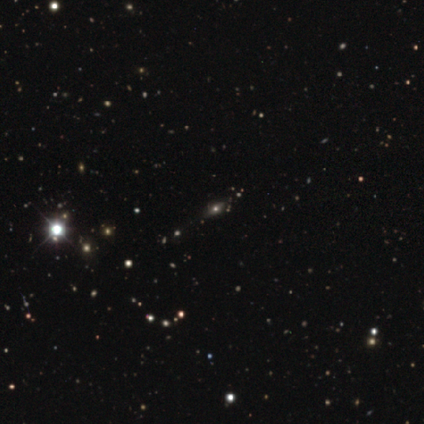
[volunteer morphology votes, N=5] featured or disk 60%, smooth 20%, star or artifact 20%. Down the decision tree: edge-on disk — no (100%); bar — no (100%); spiral arms — no (100%); bulge size — moderate (67%); merging — none (50%).